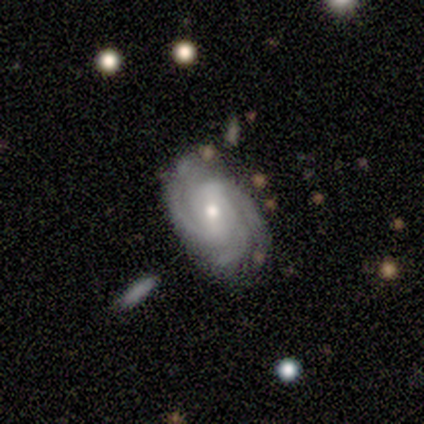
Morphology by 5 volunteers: Volunteers were most divided on "spiral winding": medium: 60%, tight: 40%, loose: 0%. More confident: smooth or featured — featured or disk (100%); edge-on disk — no (100%); spiral arms — yes (100%); merging — none (80%); spiral arm count — 3 (60%); bulge size — small (60%); bar — strong (60%).